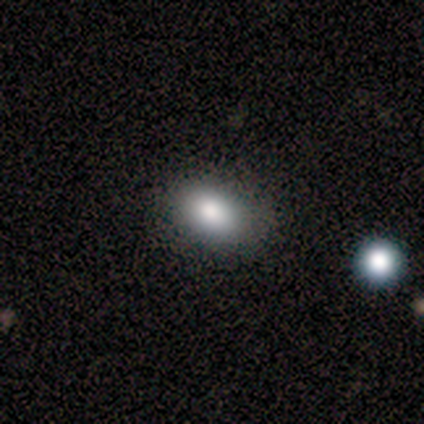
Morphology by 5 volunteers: Smooth or featured? smooth (80%)
How rounded? in between (100%)
Merging? none (100%)